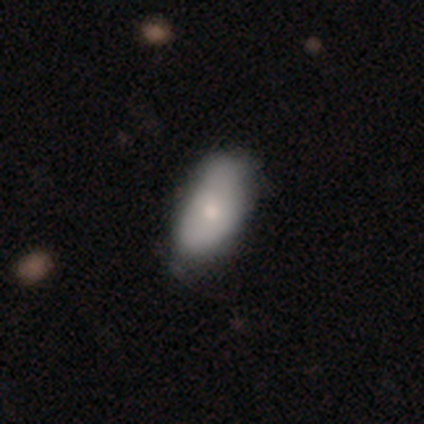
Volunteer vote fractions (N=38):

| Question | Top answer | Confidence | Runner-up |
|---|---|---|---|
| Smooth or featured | smooth | 68% | featured or disk (26%) |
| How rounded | in between | 96% | cigar-shaped (4%) |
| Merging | none | 53% | minor disturbance (19%) |